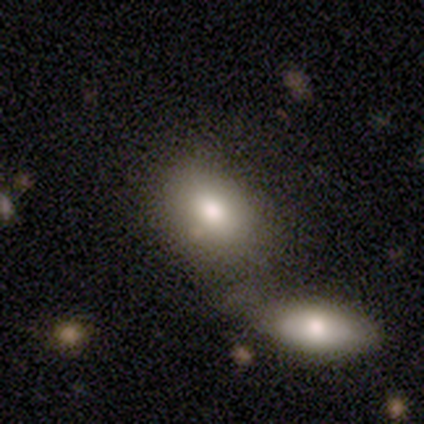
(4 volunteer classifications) Smooth or featured: smooth — 75% (featured or disk — 25%)
How rounded: in between — 67% (cigar-shaped — 33%)
Merging: merger — 75% (minor disturbance — 25%)